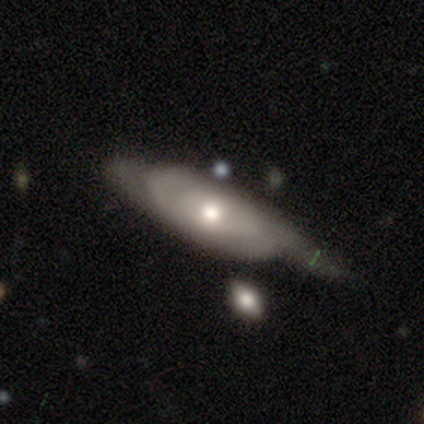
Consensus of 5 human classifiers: Q: Smooth or featured?
A: featured or disk (60%); runner-up: smooth (40%)
Q: Edge-on disk?
A: no (67%); runner-up: yes (33%)
Q: Bar?
A: no (100%)
Q: Spiral arms?
A: yes (50%); tied with: no (50%)
Q: Spiral winding?
A: medium (100%)
Q: Spiral arm count?
A: 1 (100%)
Q: Bulge size?
A: moderate (100%)
Q: Merging?
A: none (60%); runner-up: minor disturbance (20%)